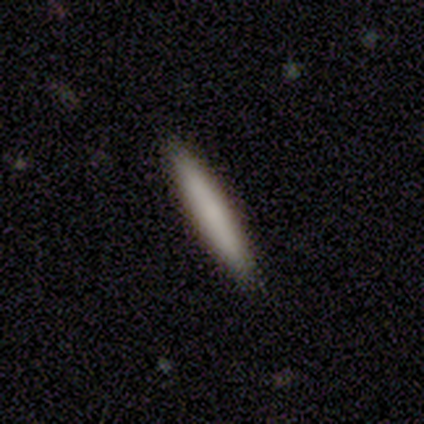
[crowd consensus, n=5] Q: Smooth or featured?
A: smooth (60%); runner-up: featured or disk (20%)
Q: How rounded?
A: cigar-shaped (100%)
Q: Merging?
A: none (100%)